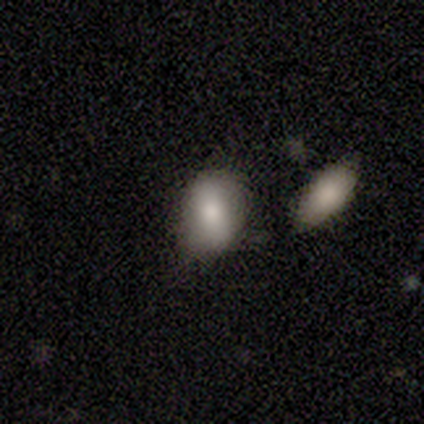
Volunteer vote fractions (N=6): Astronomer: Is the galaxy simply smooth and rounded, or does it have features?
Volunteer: smooth — 83%.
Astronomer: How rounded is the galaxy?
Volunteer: in between — 100%.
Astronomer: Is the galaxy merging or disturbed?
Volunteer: none — 80%.